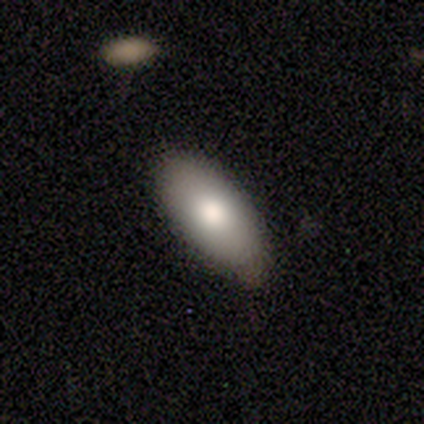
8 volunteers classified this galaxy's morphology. This is clearly a smooth galaxy (88%). How rounded: clearly in between (86%). Merging: clearly none (100%).